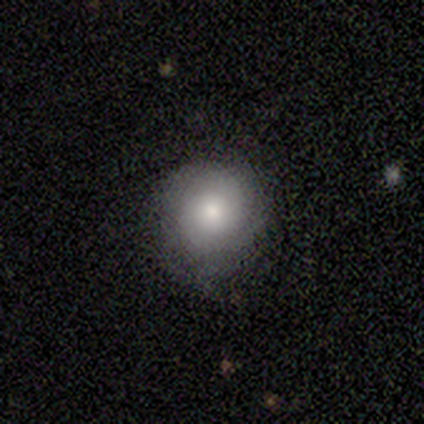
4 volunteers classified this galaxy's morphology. Overall: smooth (50%; featured or disk 25%). How rounded: round (100%). Merging: none (100%).